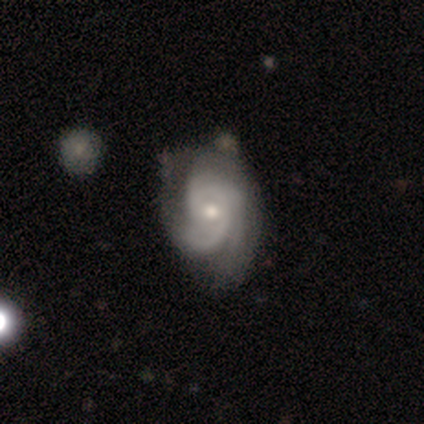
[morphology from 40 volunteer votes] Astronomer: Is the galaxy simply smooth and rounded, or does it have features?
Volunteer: featured or disk — 90%.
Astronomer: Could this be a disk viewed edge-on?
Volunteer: no — 100%.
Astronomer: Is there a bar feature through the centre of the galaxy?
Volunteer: no — 67%.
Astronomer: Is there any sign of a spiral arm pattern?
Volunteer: yes — 97%.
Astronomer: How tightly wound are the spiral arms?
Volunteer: medium — 54% (runner-up: tight, 46%).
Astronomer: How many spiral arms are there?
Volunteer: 2 — 43% (runner-up: 3, 31%).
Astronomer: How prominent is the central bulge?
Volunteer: moderate — 50% (runner-up: small, 44%).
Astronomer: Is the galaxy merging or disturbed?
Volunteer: none — 47%.